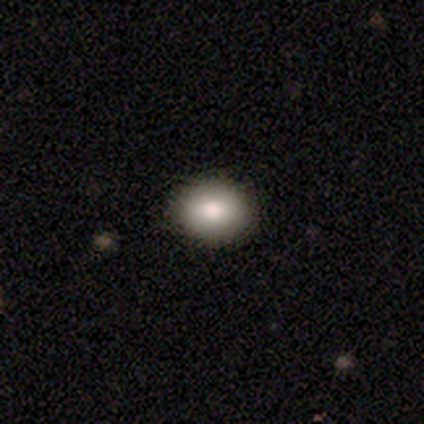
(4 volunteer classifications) Q: Smooth or featured?
A: smooth (75%); runner-up: featured or disk (25%)
Q: How rounded?
A: in between (67%); runner-up: round (33%)
Q: Merging?
A: none (100%)